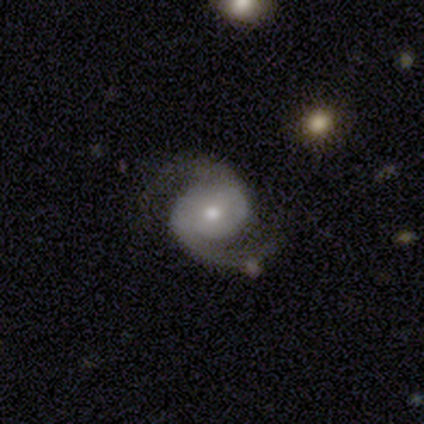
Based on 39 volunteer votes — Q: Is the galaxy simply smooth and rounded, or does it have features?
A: featured or disk — 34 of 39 (87%).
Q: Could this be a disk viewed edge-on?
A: no — 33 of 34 (97%).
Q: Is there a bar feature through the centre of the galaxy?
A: no — 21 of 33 (64%).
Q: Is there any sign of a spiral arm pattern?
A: yes — 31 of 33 (94%).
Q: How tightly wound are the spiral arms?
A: medium — 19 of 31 (61%).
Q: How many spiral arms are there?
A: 2 — 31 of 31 (100%).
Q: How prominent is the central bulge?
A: moderate — 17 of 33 (52%).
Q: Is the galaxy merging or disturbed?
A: none — 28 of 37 (76%).